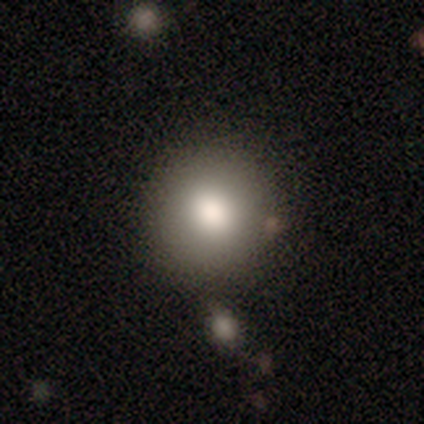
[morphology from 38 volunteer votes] This is likely a smooth galaxy (79%). How rounded: clearly round (93%). Merging: likely none (76%).